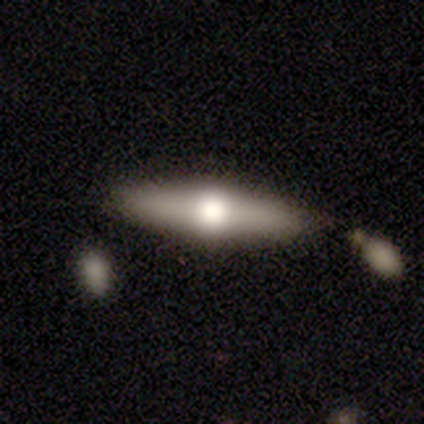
A featured or disk galaxy (60%) viewed edge-on (100%) with a rounded central bulge (100%). Merging: none (40%, tied with merger).